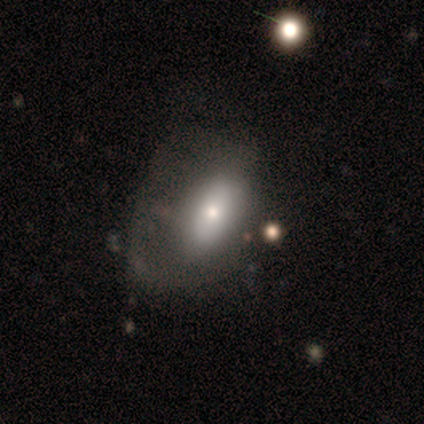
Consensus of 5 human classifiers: smooth 80%, star or artifact 20%, featured or disk 0%. Down the decision tree: how rounded — in between (100%); merging — none (50%, tied with major disturbance).